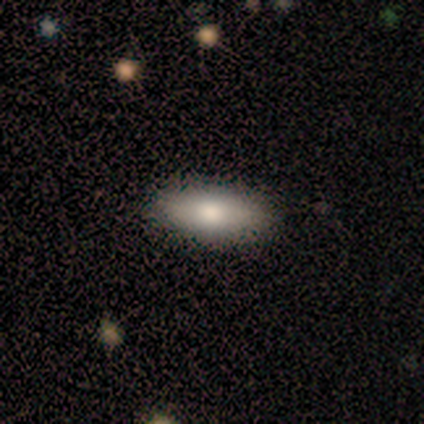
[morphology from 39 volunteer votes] Smooth or featured? smooth (82%)
How rounded? in between (66%)
Merging? none (86%)